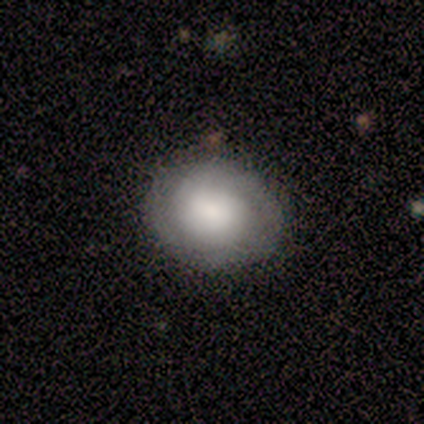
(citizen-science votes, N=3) Volunteers were most divided on "smooth or featured": smooth: 67%, featured or disk: 33%, star or artifact: 0%. More confident: how rounded — round (100%); merging — none (67%).